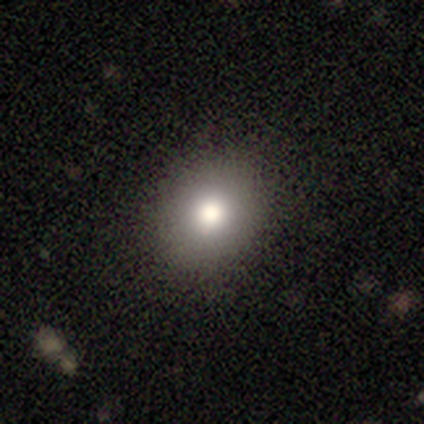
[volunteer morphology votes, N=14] This is possibly a smooth galaxy (50%). How rounded: possibly in between (57%). Merging: clearly none (89%).